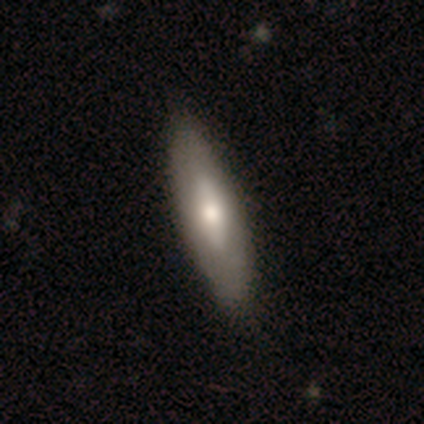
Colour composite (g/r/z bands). It shows a smooth galaxy with no disk features (57%) that is in between round and cigar-shaped (50%, tied with cigar-shaped). Merging: none (86%).